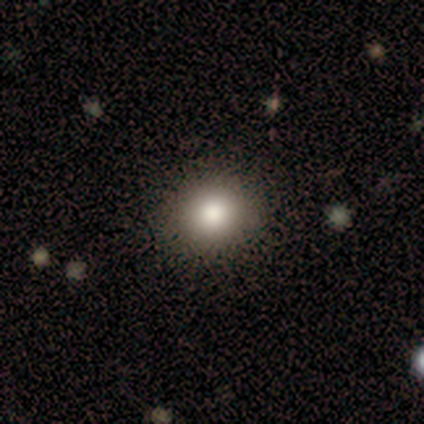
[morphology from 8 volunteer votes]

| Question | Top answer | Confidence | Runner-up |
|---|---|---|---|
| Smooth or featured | smooth | 88% | star or artifact (12%) |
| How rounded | round | 71% | in between (29%) |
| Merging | none | 71% | major disturbance (14%) |